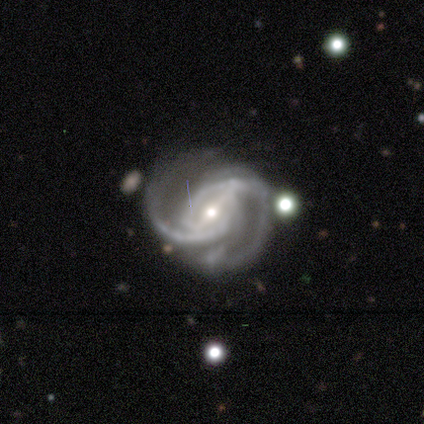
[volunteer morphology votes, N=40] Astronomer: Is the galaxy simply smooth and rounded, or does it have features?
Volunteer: featured or disk — 90%.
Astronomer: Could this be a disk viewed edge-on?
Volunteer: no — 97%.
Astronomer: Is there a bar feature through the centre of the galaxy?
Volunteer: strong — 63%.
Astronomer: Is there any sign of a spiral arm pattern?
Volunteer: yes — 100%.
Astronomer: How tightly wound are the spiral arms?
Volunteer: medium — 51% (runner-up: tight, 37%).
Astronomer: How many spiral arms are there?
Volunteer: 2 — 69%.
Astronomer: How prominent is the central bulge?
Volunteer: small — 51% (runner-up: moderate, 49%).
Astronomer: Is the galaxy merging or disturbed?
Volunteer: none — 50%.